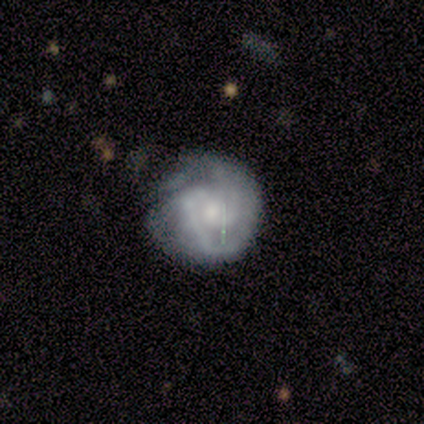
This appears to be a featured or disk galaxy (80%) with no bar (75%), 2 (75%) tight (50%, tied with medium) spiral arms (100%) and a small central bulge (75%). Merging: none (50%).